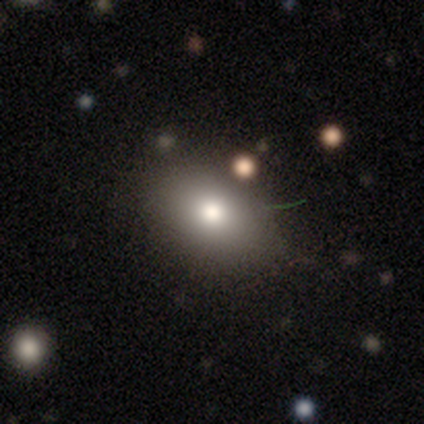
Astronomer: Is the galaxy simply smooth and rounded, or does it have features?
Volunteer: smooth — 75%.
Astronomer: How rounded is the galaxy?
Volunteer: in between — 67%.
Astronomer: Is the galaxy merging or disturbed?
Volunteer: none — 100%.